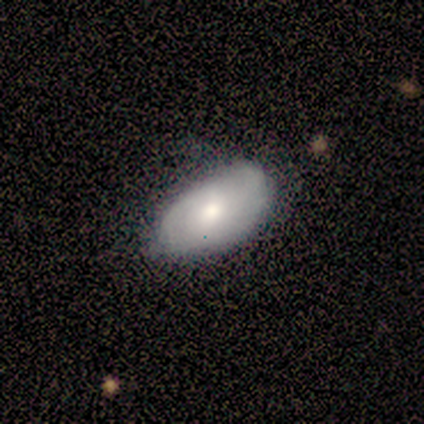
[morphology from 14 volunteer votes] Overall: smooth (79%). How rounded: in between (91%). Merging: none (85%).